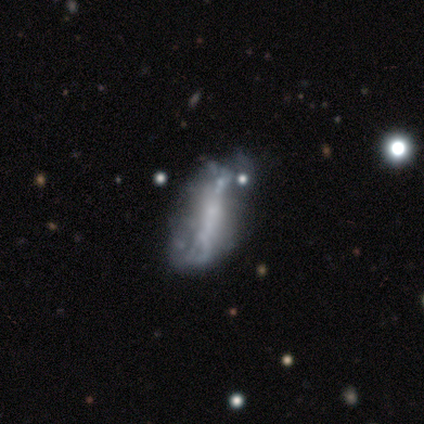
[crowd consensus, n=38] smooth_or_featured: featured or disk (p=0.66) [alt: smooth p=0.32]
disk_edge_on: no (p=0.88) [alt: yes p=0.12]
bar: no (p=0.55) [alt: strong p=0.41]
has_spiral_arms: no (p=0.77) [alt: yes p=0.23]
bulge_size: none (p=0.55) [alt: small p=0.41]
merging: major disturbance (p=0.22) [alt: minor disturbance p=0.19]